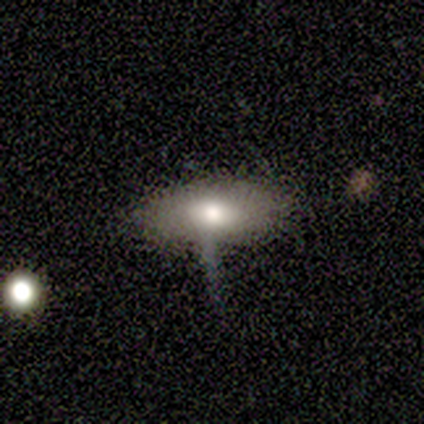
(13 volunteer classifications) Q: Smooth or featured?
A: smooth (62%); runner-up: featured or disk (38%)
Q: How rounded?
A: in between (100%)
Q: Merging?
A: none (54%); runner-up: minor disturbance (38%)